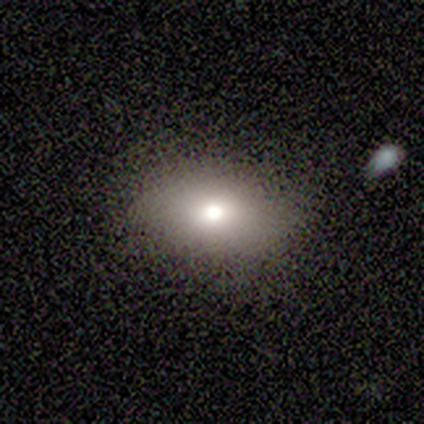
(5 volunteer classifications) Smooth or featured: smooth — 80% (star or artifact — 20%)
How rounded: in between — 75% (round — 25%)
Merging: none — 75% (minor disturbance — 25%)